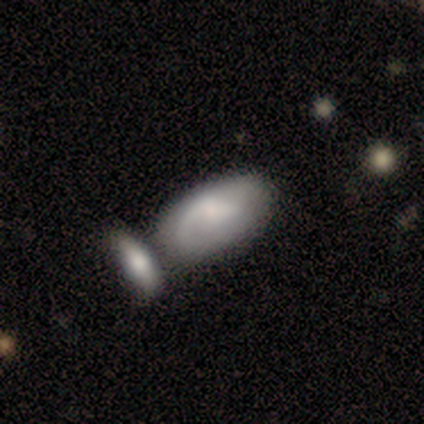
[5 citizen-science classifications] smooth 40% (tied), featured or disk 40% (tied), star or artifact 20%. Down the decision tree: how rounded — in between (50%, tied with cigar-shaped); merging — none (75%).